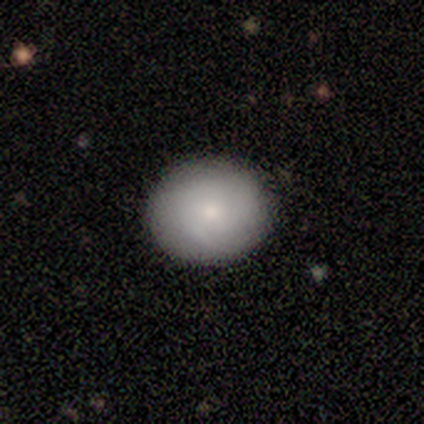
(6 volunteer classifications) Volunteers were most divided on "smooth or featured": smooth: 67%, featured or disk: 33%, star or artifact: 0%. More confident: how rounded — round (100%); merging — none (100%).